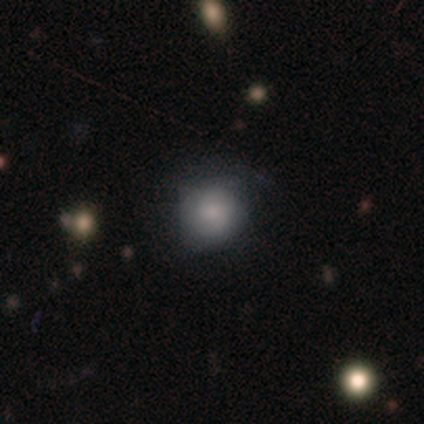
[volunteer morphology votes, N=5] A smooth galaxy with no disk features (80%) that is round (100%). Merging: none (75%).